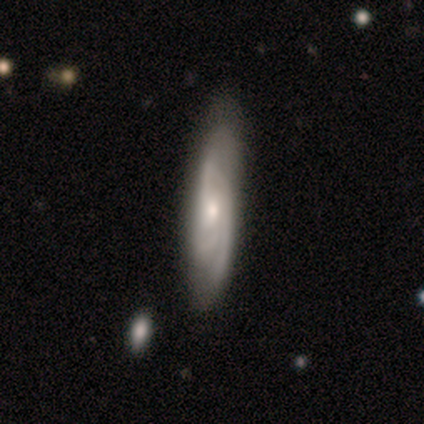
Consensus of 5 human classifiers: This appears to be a featured or disk galaxy (100%) with no bar (100%), tight (60%) spiral arms (100%) and a small central bulge (80%). Merging: none (80%).